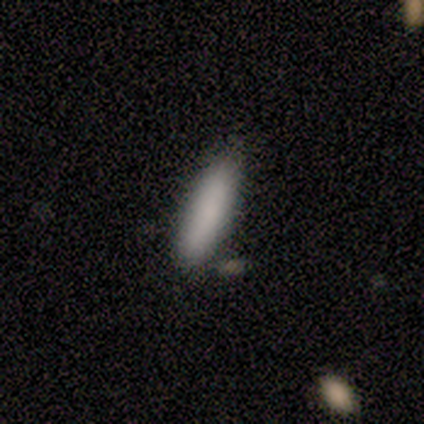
This appears to be a smooth galaxy with no disk features (100%) that is cigar-shaped (60%). Merging: none (60%).